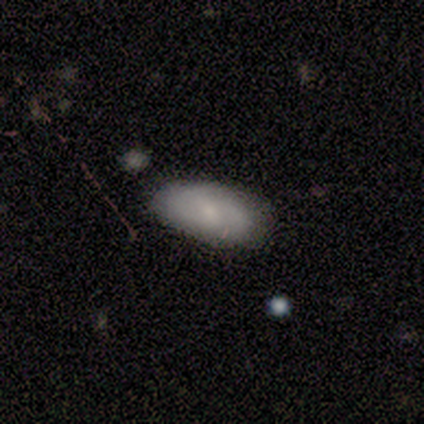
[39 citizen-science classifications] A smooth galaxy with no disk features (67%) that is in between round and cigar-shaped (100%).

Vote fractions:
- Smooth or featured? smooth: 67% / featured or disk: 23% / star or artifact: 10%
- How rounded? in between: 100% / round: 0% / cigar-shaped: 0%
- Merging? none: 77% / minor disturbance: 20% / major disturbance: 3% / merger: 0%